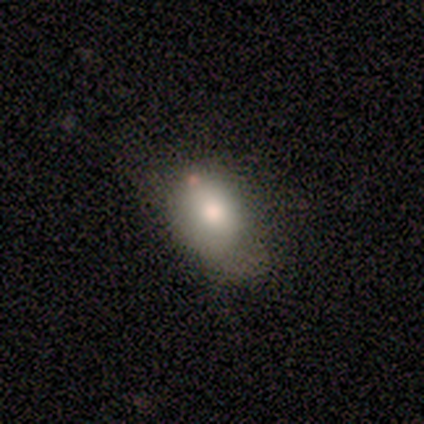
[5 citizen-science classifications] Smooth or featured: smooth — 60% (featured or disk — 40%)
How rounded: in between — 67% (round — 33%)
Merging: none — 80% (minor disturbance — 20%)